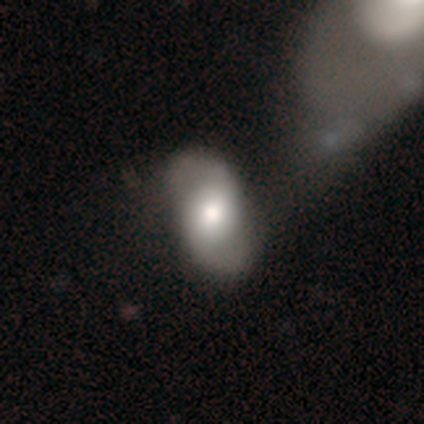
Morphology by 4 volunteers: Overall: smooth (50%, tied with featured or disk). How rounded: in between (100%). Merging: none (75%).